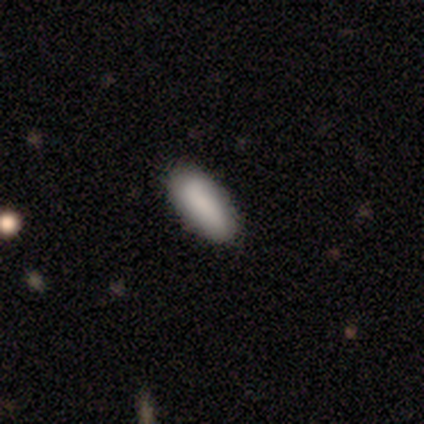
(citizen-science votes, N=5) A smooth galaxy with no disk features (100%) that is in between round and cigar-shaped (60%).

Vote fractions:
- Smooth or featured? smooth: 100% / featured or disk: 0% / star or artifact: 0%
- How rounded? in between: 60% / cigar-shaped: 40% / round: 0%
- Merging? none: 80% / minor disturbance: 20% / major disturbance: 0% / merger: 0%